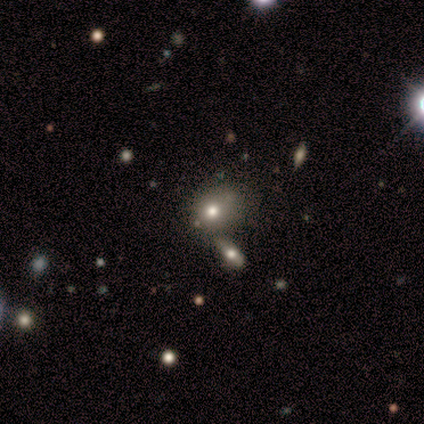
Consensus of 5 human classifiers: smooth-or-featured: smooth: 60% | featured or disk: 40% | star or artifact: 0%
  how-rounded: round: 67% | in between: 33% | cigar-shaped: 0%
  merging: none: 80% | merger: 20% | minor disturbance: 0% | major disturbance: 0%